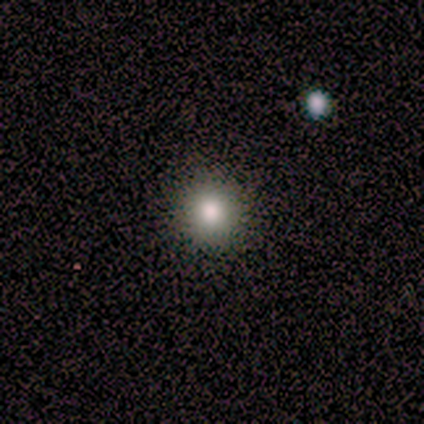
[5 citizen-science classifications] smooth-or-featured: smooth: 60% | star or artifact: 40% | featured or disk: 0%
  how-rounded: round: 100% | in between: 0% | cigar-shaped: 0%
  merging: none: 67% | merger: 33% | minor disturbance: 0% | major disturbance: 0%